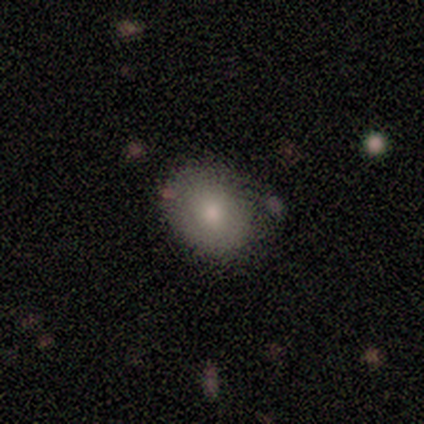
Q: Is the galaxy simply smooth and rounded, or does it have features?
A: smooth — 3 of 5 (60%).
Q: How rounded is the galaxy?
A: in between — 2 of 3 (67%).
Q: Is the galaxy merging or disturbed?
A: none — 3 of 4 (75%).